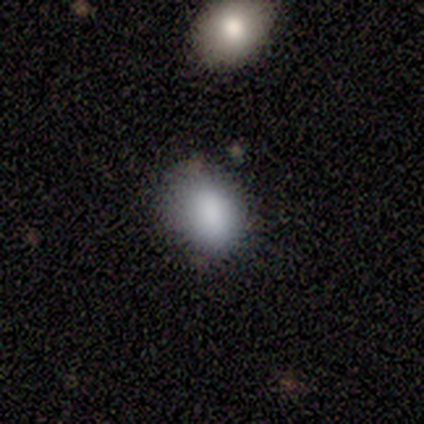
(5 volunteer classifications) smooth 80%, star or artifact 20%, featured or disk 0%. Down the decision tree: how rounded — round (50%, tied with in between); merging — none (75%).